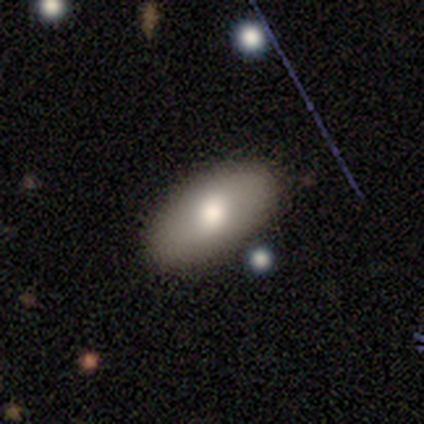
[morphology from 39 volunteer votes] smooth-or-featured: smooth: 79% | featured or disk: 21% | star or artifact: 0%
  how-rounded: in between: 90% | cigar-shaped: 6% | round: 3%
  merging: none: 82% | minor disturbance: 13% | major disturbance: 5% | merger: 0%